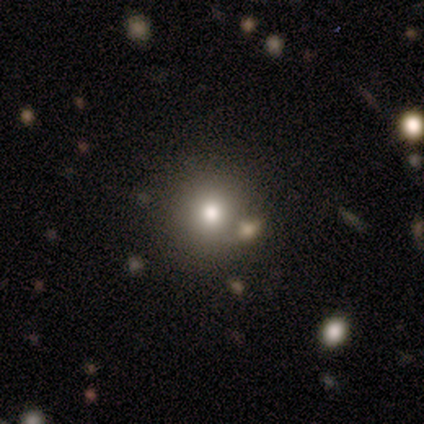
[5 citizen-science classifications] Morphology: type=smooth (80%); roundness=round (100%); merging=none (100%).